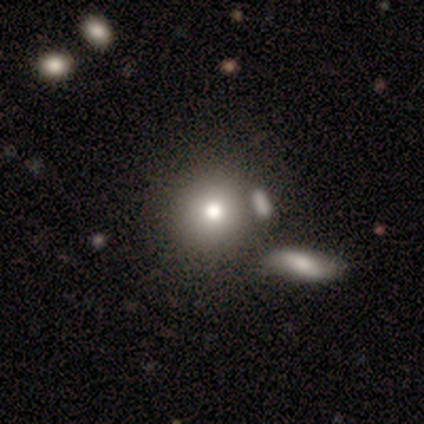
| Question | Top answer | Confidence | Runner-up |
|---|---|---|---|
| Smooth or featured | smooth | 80% | featured or disk (20%) |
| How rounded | round | 100% | — |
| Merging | none | 60% | minor disturbance (20%) |